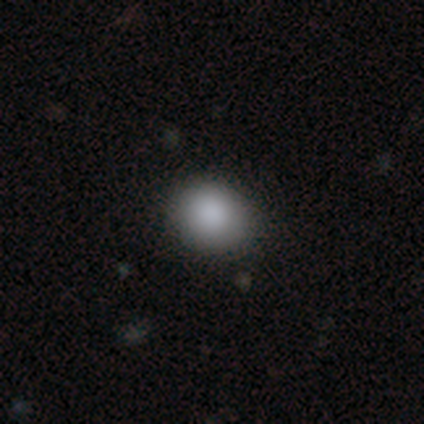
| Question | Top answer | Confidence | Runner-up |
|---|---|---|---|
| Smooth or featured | smooth | 97% | featured or disk (3%) |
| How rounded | round | 68% | in between (32%) |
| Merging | none | 49% | minor disturbance (5%) |